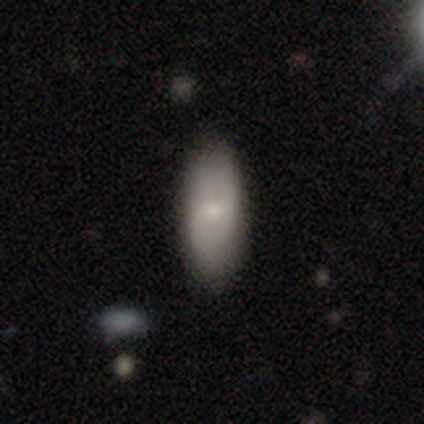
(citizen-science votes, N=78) Smooth or featured? 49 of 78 (63%) said smooth. How rounded? 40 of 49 (82%) said in between. Merging? 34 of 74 (46%) said none.